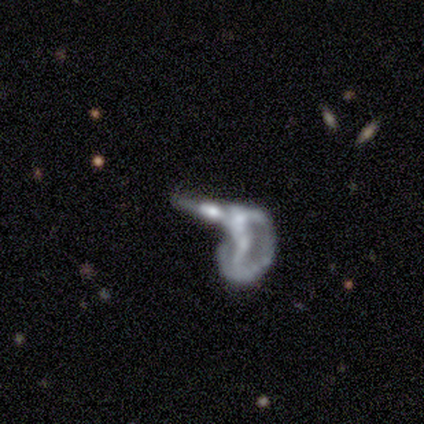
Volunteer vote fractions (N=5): This appears to be a featured or disk galaxy (60%) with a strong bar (67%), no spiral arms (67%) and a small central bulge (67%). Merging: major disturbance (60%).